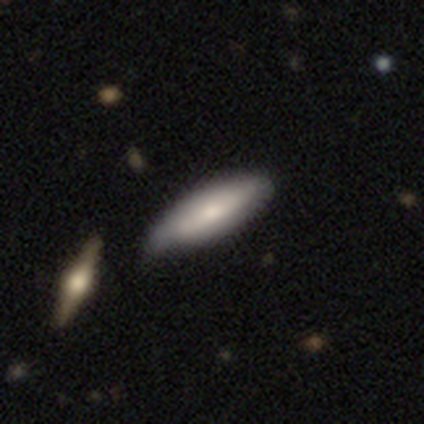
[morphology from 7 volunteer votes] smooth_or_featured: smooth (p=0.86) [alt: featured or disk p=0.14]
how_rounded: in between (p=0.50) [tied with: cigar-shaped p=0.50]
merging: none (p=0.57) [alt: minor disturbance p=0.43]